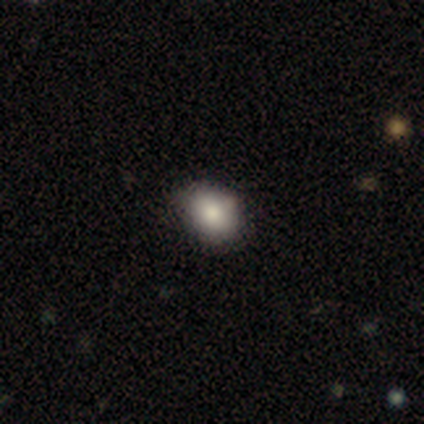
Smooth or featured? 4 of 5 (80%) said smooth. How rounded? 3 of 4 (75%) said in between. Merging? 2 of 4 (50%, tied with minor disturbance) said none.